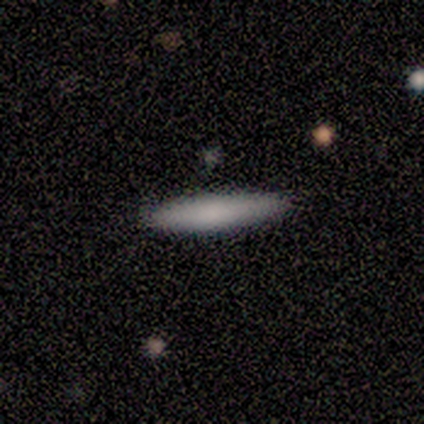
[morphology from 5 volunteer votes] Smooth or featured?
  - smooth: 80% *
  - featured or disk: 20%
  - star or artifact: 0%
How rounded?
  - cigar-shaped: 100% *
  - round: 0%
  - in between: 0%
Merging?
  - none: 100% *
  - minor disturbance: 0%
  - major disturbance: 0%
  - merger: 0%